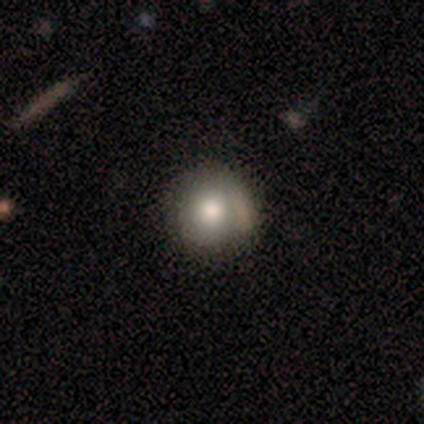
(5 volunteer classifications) Smooth or featured? 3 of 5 (60%) said smooth. How rounded? 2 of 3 (67%) said round. Merging? 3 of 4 (75%) said none.